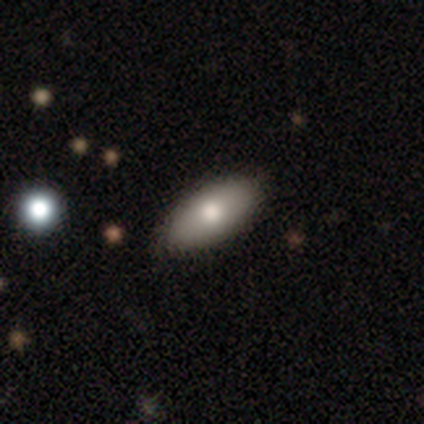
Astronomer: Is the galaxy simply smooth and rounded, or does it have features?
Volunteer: smooth — 76%.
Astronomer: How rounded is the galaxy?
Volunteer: in between — 86%.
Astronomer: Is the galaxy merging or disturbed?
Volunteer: none — 46%.